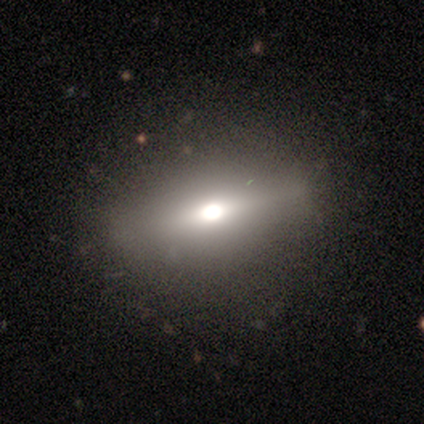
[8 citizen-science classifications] This appears to be a featured or disk galaxy (38%, tied with star or artifact) viewed edge-on (100%) with a rounded central bulge (100%). Merging: none (100%).